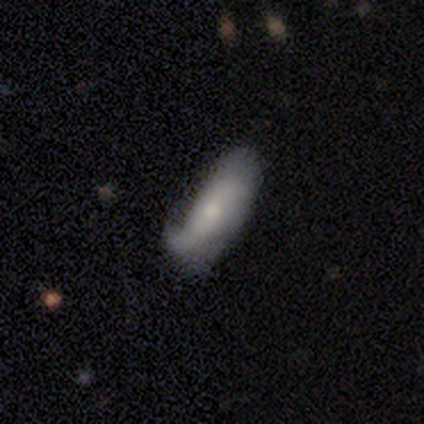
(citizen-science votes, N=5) Smooth or featured? smooth (40%, tied with featured or disk)
How rounded? in between (100%)
Merging? minor disturbance (75%)